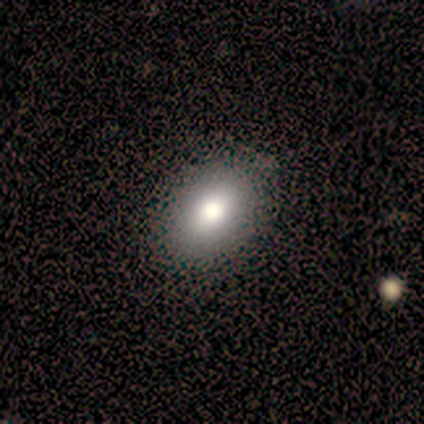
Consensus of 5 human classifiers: smooth_or_featured: smooth (p=0.80) [alt: featured or disk p=0.20]
how_rounded: round (p=0.50) [tied with: in between p=0.50]
merging: none (p=0.80) [alt: major disturbance p=0.20]